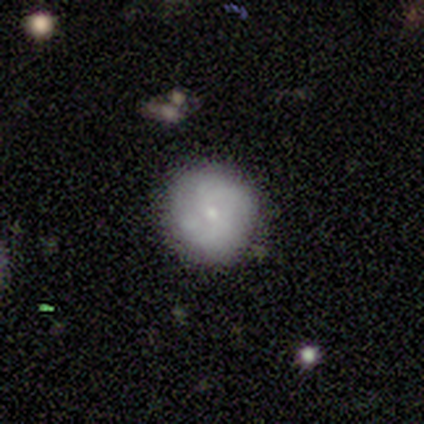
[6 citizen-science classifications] Smooth or featured? 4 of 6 (67%) said featured or disk. Edge-on disk? 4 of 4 (100%) said no. Bar? 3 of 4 (75%) said no. Spiral arms? 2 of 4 (50%, tied with no) said yes. Spiral winding? 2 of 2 (100%) said tight. Spiral arm count? 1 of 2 (50%, tied with can't tell) said 2. Bulge size? 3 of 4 (75%) said small. Merging? 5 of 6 (83%) said none.